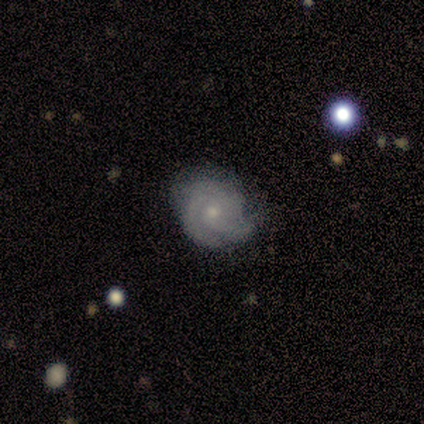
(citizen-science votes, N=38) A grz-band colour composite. It shows a featured or disk galaxy (79%) with no bar (83%), 3 (50%) tight (64%) spiral arms (93%) and a small central bulge (63%). Merging: none (75%).